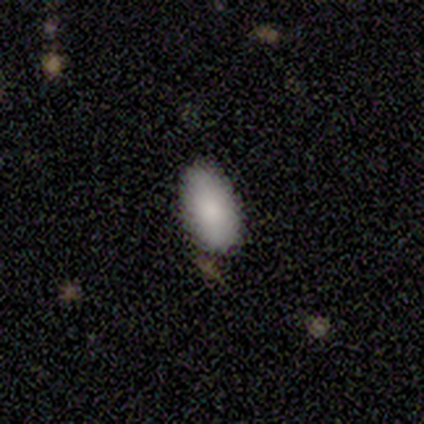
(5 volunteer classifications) Smooth or featured? smooth (100%)
How rounded? in between (80%)
Merging? none (60%)